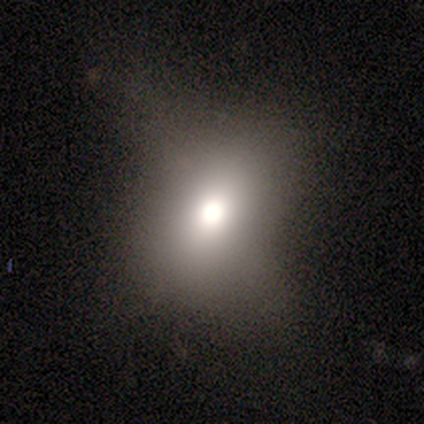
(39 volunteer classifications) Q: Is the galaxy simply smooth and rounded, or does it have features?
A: smooth — 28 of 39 (72%).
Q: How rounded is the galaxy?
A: in between — 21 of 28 (75%).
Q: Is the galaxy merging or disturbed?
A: none — 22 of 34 (65%).